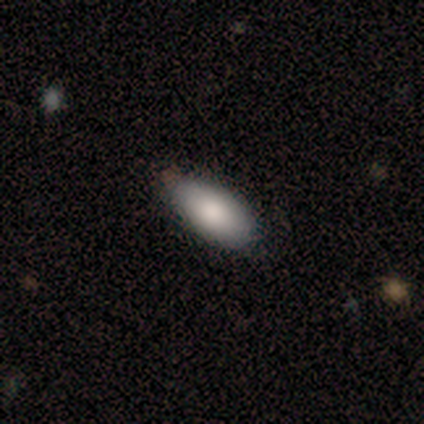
smooth 100%, featured or disk 0%, star or artifact 0%. Down the decision tree: how rounded — in between (60%); merging — none (100%).